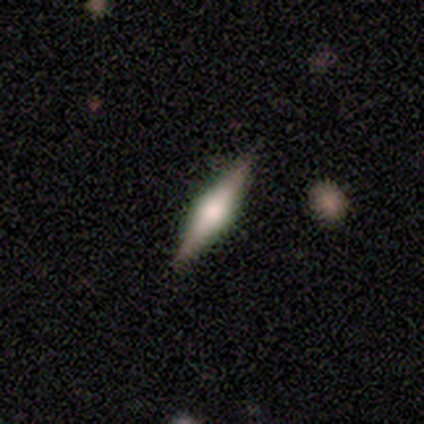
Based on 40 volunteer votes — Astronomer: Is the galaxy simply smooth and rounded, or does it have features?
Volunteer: featured or disk — 68%.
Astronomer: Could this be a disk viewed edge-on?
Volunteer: yes — 96%.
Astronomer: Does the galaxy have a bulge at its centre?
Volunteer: rounded — 96%.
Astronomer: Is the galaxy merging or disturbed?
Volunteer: none — 97%.